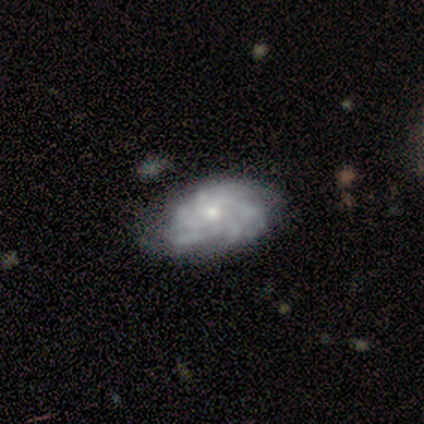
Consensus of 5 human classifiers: Smooth or featured? 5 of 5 (100%) said featured or disk. Edge-on disk? 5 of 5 (100%) said no. Bar? 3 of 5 (60%) said no. Spiral arms? 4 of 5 (80%) said yes. Spiral winding? 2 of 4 (50%) said tight. Spiral arm count? 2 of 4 (50%) said more than 4. Bulge size? 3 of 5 (60%) said small. Merging? 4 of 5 (80%) said none.